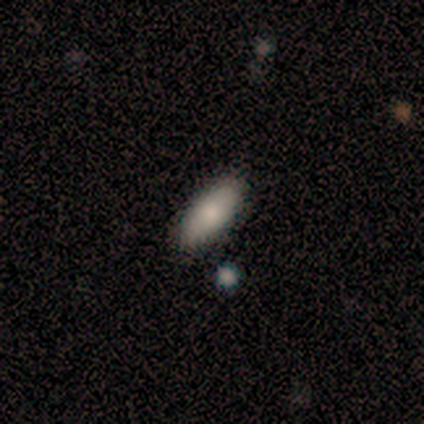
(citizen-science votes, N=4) smooth-or-featured: smooth: 100% | featured or disk: 0% | star or artifact: 0%
  how-rounded: in between: 100% | round: 0% | cigar-shaped: 0%
  merging: none: 100% | minor disturbance: 0% | major disturbance: 0% | merger: 0%